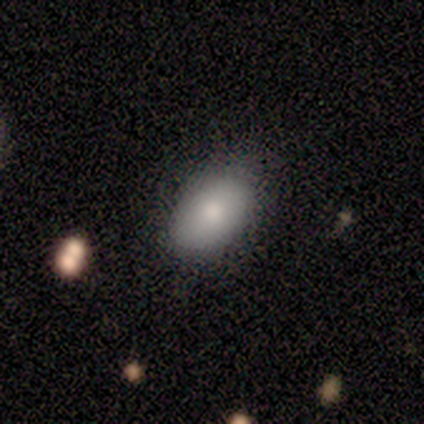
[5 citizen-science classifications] smooth 100%, featured or disk 0%, star or artifact 0%. Down the decision tree: how rounded — in between (100%); merging — none (80%).